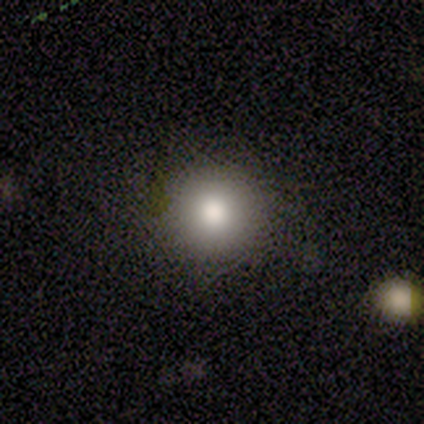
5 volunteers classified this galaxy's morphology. type=smooth (80%); roundness=round (100%); merging=none (100%).